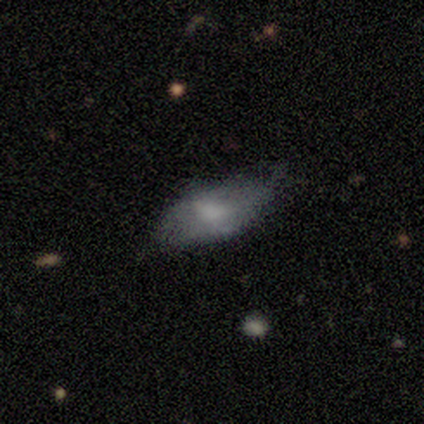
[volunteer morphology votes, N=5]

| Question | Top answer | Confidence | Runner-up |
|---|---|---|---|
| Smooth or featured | featured or disk | 80% | smooth (20%) |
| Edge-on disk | yes | 50% | tied: no (50%) |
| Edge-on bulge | boxy | 50% | tied: rounded (50%) |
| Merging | none | 40% | tied: minor disturbance (40%) |